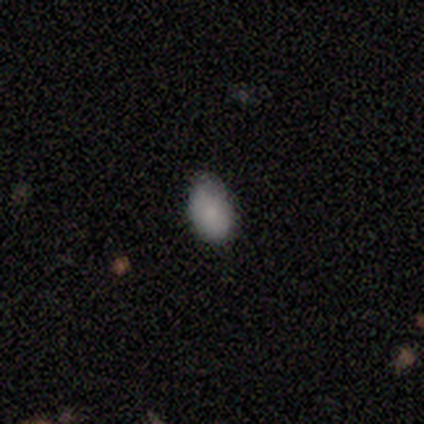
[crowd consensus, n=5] smooth 100%, featured or disk 0%, star or artifact 0%. Down the decision tree: how rounded — in between (100%); merging — none (60%).